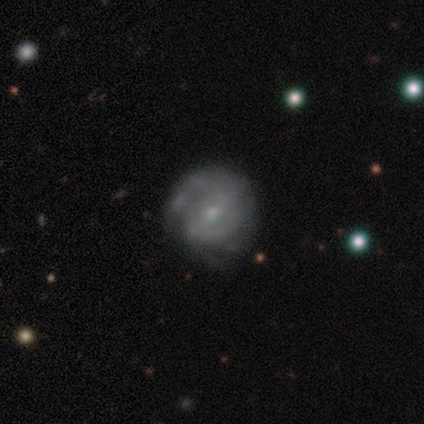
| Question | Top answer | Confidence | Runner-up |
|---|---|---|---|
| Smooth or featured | featured or disk | 59% | smooth (30%) |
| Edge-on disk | no | 100% | — |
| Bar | weak | 45% | no (41%) |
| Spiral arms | yes | 82% | no (18%) |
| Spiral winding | tight | 61% | medium (39%) |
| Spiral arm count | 2 | 39% | can't tell (22%) |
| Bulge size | small | 59% | moderate (36%) |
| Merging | none | 82% | minor disturbance (15%) |